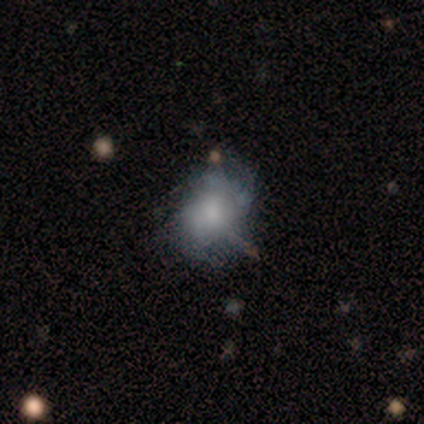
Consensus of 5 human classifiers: Morphology: type=smooth (100%); roundness=in between (80%); merging=none (60%).